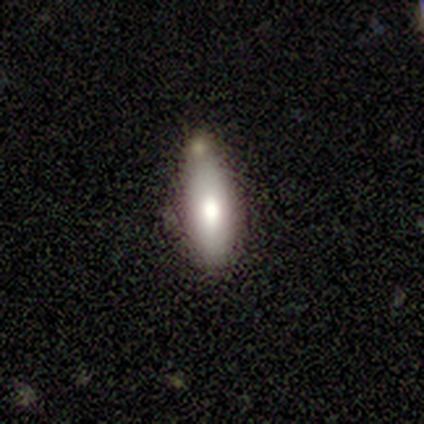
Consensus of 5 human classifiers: Smooth or featured? 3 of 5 (60%) said smooth. How rounded? 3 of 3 (100%) said in between. Merging? 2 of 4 (50%) said none.